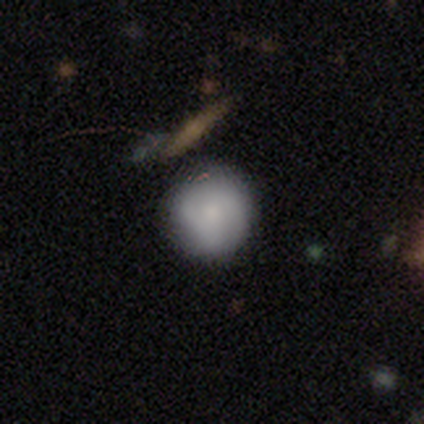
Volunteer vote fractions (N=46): Smooth or featured? 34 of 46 (74%) said smooth. How rounded? 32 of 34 (94%) said round. Merging? 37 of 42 (88%) said none.